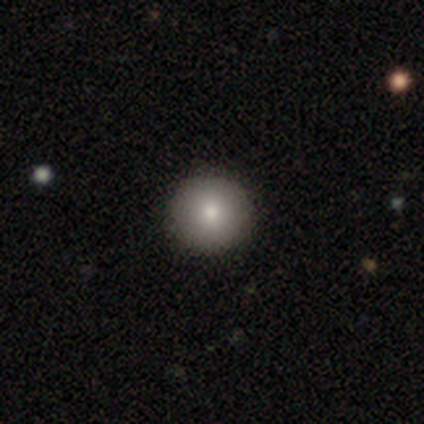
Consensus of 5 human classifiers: Q: Smooth or featured?
A: smooth (100%)
Q: How rounded?
A: round (100%)
Q: Merging?
A: none (100%)